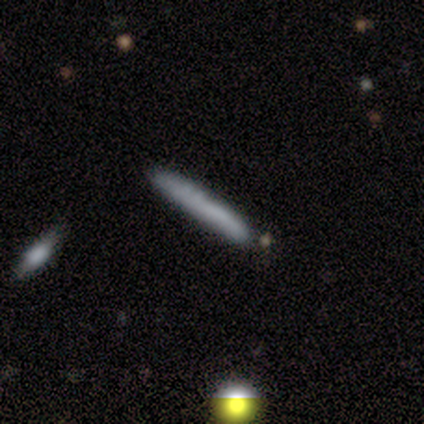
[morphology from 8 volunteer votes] Overall: smooth (88%). How rounded: cigar-shaped (100%). Merging: none (86%).